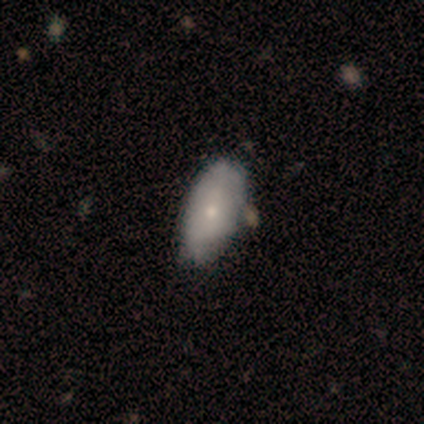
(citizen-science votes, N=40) A smooth galaxy with no disk features (72%) that is in between round and cigar-shaped (93%). Merging: none (45%).